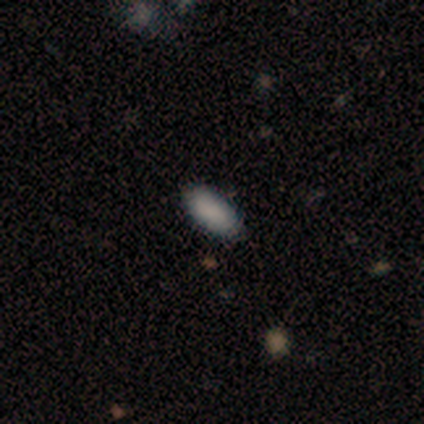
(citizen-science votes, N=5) This is likely a smooth galaxy (60%). How rounded: clearly in between (100%). Merging: likely none (75%).